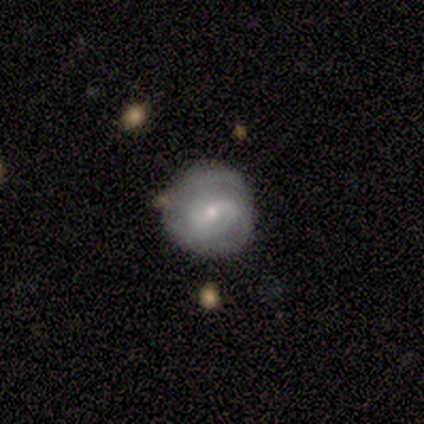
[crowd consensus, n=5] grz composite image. It shows a featured or disk galaxy (100%) with a weak bar (60%), 3 (40%, tied with can't tell) medium (60%) spiral arms (100%) and a small central bulge (60%). Merging: none (60%).